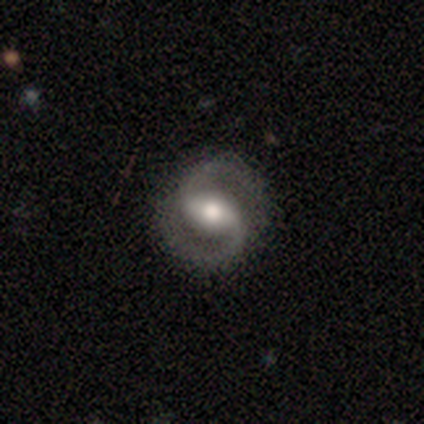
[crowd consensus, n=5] A featured or disk galaxy (100%) with a weak bar (60%), 2 (100%) tight (60%) spiral arms (100%) and a large central bulge (60%). Merging: none (80%).